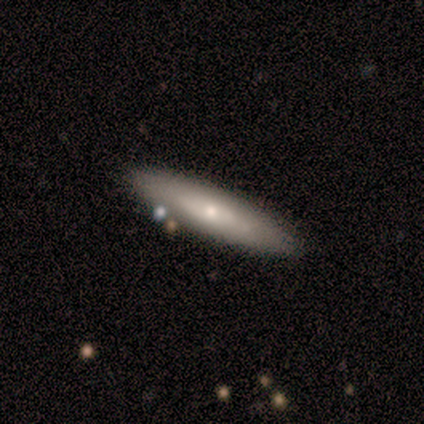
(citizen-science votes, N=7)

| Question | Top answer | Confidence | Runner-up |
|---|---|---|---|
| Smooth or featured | smooth | 86% | featured or disk (14%) |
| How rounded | cigar-shaped | 67% | in between (33%) |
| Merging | none | 100% | — |